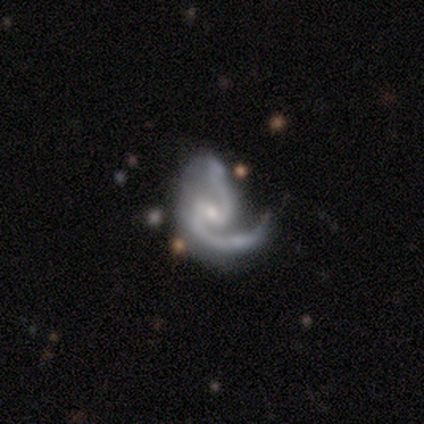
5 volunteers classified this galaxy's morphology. Smooth or featured?
  - featured or disk: 80% *
  - star or artifact: 20%
  - smooth: 0%
Edge-on disk?
  - no: 100% *
  - yes: 0%
Bar?
  - weak: 75% *
  - strong: 25%
  - no: 0%
Spiral arms?
  - yes: 100% *
  - no: 0%
Spiral winding?
  - medium: 75% *
  - loose: 25%
  - tight: 0%
Spiral arm count?
  - 2: 100% *
  - 1: 0%
  - 3: 0%
  - 4: 0%
  - more than 4: 0%
  - can't tell: 0%
Bulge size?
  - small: 75% *
  - moderate: 25%
  - dominant: 0%
  - large: 0%
  - none: 0%
Merging?
  - minor disturbance: 50% * (tied)
  - major disturbance: 50% * (tied)
  - none: 0%
  - merger: 0%